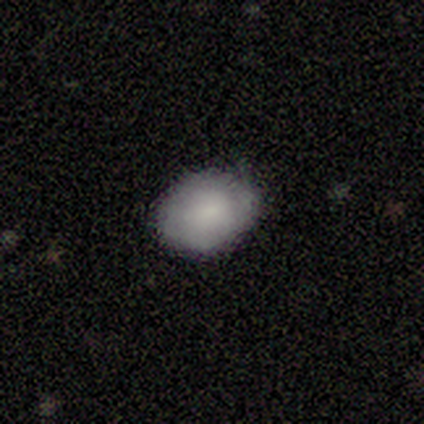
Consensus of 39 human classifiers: A smooth galaxy with no disk features (69%) that is in between round and cigar-shaped (74%). Merging: none (62%).